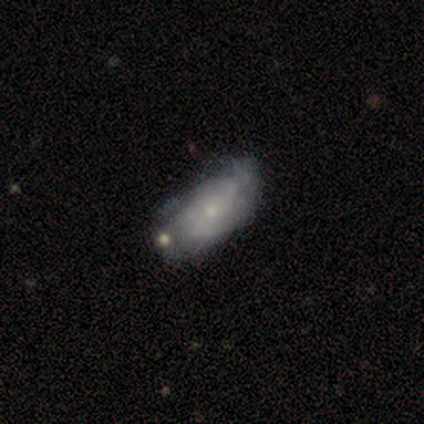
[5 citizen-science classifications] A featured or disk galaxy (60%) with no bar (100%), no spiral arms (100%) and a small central bulge (67%). Merging: minor disturbance (67%).